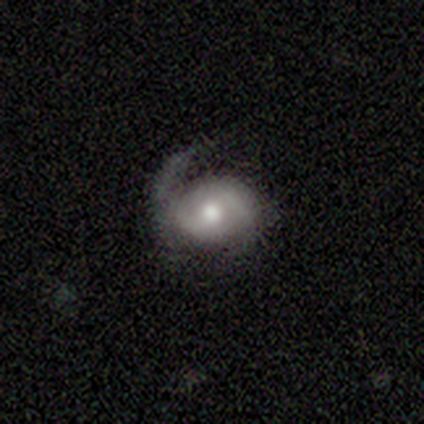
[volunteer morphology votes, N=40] Smooth or featured?
  - featured or disk: 85% *
  - smooth: 10%
  - star or artifact: 5%
Edge-on disk?
  - no: 97% *
  - yes: 3%
Bar?
  - no: 55% *
  - weak: 33%
  - strong: 12%
Spiral arms?
  - yes: 85% *
  - no: 15%
Spiral winding?
  - medium: 36% *
  - tight: 32%
  - loose: 32%
Spiral arm count?
  - 2: 61% *
  - 1: 32%
  - 3: 4%
  - can't tell: 4%
  - 4: 0%
  - more than 4: 0%
Bulge size?
  - moderate: 82% *
  - large: 15%
  - small: 3%
  - dominant: 0%
  - none: 0%
Merging?
  - none: 50% *
  - major disturbance: 26%
  - minor disturbance: 24%
  - merger: 0%